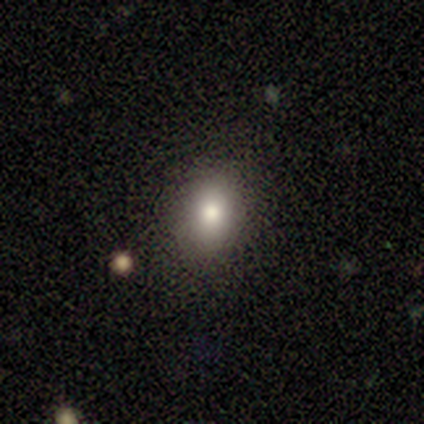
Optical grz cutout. It shows a smooth galaxy with no disk features (67%) that is in between round and cigar-shaped (100%). Merging: none (75%).